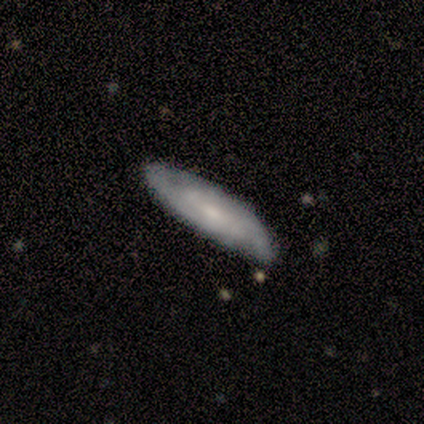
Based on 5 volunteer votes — A featured or disk galaxy (80%) with no bar (67%), 2 (50%, tied with can't tell) tight (50%, tied with medium) spiral arms (67%) and a small central bulge (67%). Merging: minor disturbance (60%).